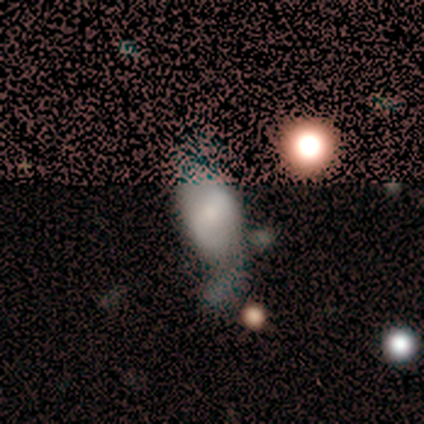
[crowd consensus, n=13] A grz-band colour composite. It shows a smooth galaxy with no disk features (46%) that is in between round and cigar-shaped (83%). Merging: none (44%, tied with minor disturbance).